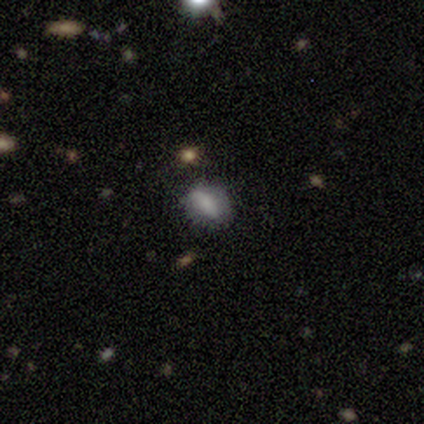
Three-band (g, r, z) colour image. It shows a smooth galaxy with no disk features (62%) that is in between round and cigar-shaped (100%). Merging: none (80%).